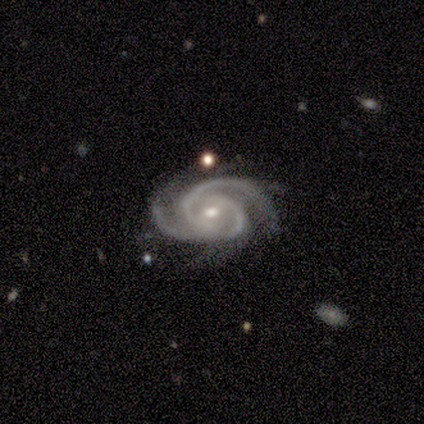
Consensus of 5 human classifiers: Morphology: type=featured or disk (100%); edge-on=no (100%); bar=weak (60%); spiral arms=yes (100%); winding=medium (60%); arm count=3 (60%); bulge=small (80%); merging=none (60%).